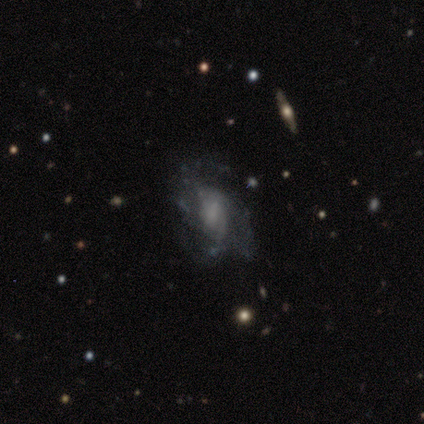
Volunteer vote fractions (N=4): smooth_or_featured: featured or disk (p=0.75) [alt: smooth p=0.25]
disk_edge_on: no (p=1.00)
bar: weak (p=0.67) [alt: no p=0.33]
has_spiral_arms: yes (p=1.00)
spiral_winding: tight (p=0.67) [alt: loose p=0.33]
spiral_arm_count: can't tell (p=0.67) [alt: 3 p=0.33]
bulge_size: small (p=0.67) [alt: moderate p=0.33]
merging: none (p=0.50) [alt: minor disturbance p=0.25]